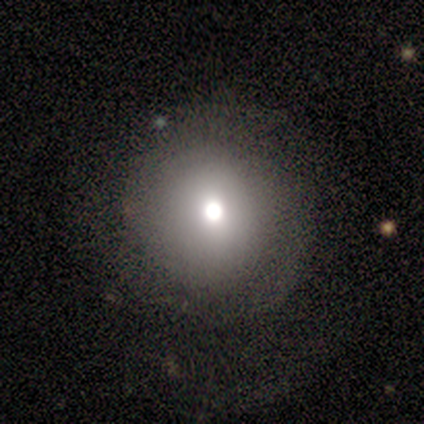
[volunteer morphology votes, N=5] Smooth or featured: smooth — 80% (featured or disk — 20%)
How rounded: round — 100%
Merging: none — 80% (minor disturbance — 20%)